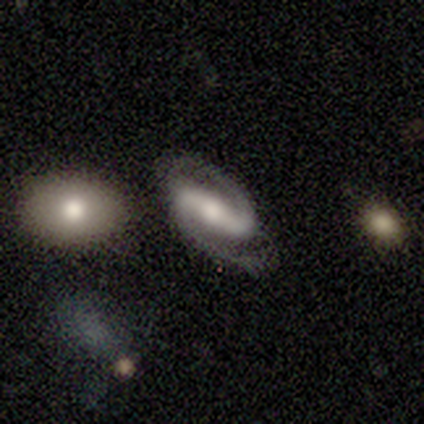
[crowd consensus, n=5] Smooth or featured? featured or disk (100%)
Edge-on disk? no (100%)
Bar? strong (60%)
Spiral arms? yes (100%)
Spiral winding? medium (40%, tied with loose)
Spiral arm count? 2 (100%)
Bulge size? moderate (80%)
Merging? none (100%)